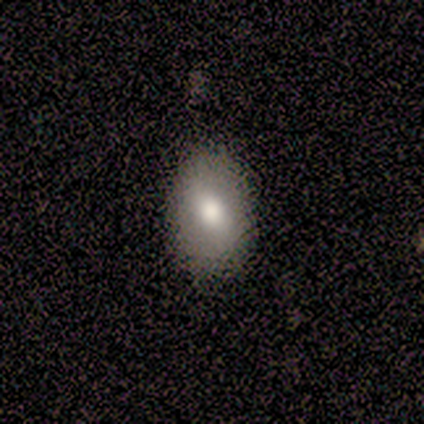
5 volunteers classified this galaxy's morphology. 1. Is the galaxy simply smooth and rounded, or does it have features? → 80% smooth, 20% featured or disk, 0% star or artifact.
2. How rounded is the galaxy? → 100% in between, 0% round, 0% cigar-shaped.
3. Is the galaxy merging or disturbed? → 80% none, 20% minor disturbance, 0% major disturbance, 0% merger.